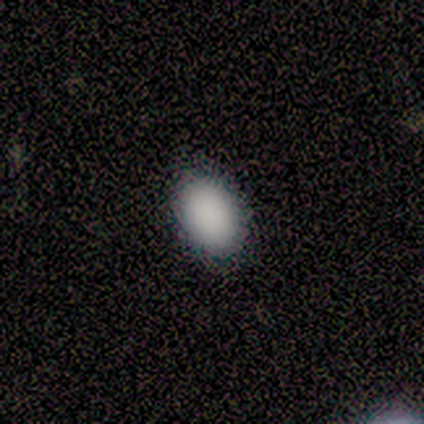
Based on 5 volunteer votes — Smooth or featured? smooth (80%)
How rounded? round (50%, tied with in between)
Merging? none (100%)